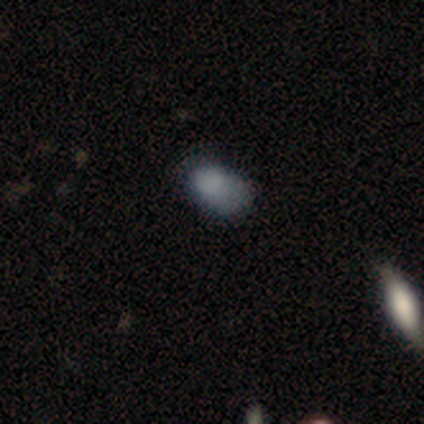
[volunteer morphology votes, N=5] This is clearly a smooth galaxy (80%). How rounded: clearly in between (100%). Merging: likely major disturbance (60%).